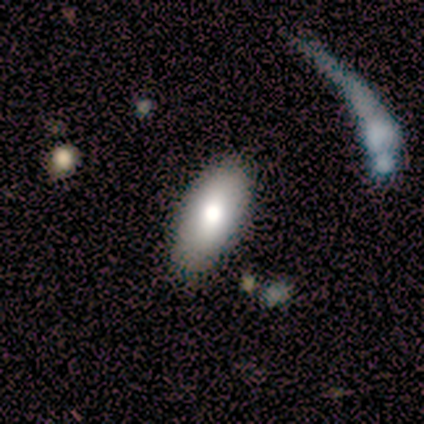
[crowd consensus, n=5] smooth_or_featured: smooth (p=0.60) [alt: featured or disk p=0.40]
how_rounded: in between (p=1.00)
merging: none (p=0.80) [alt: minor disturbance p=0.20]